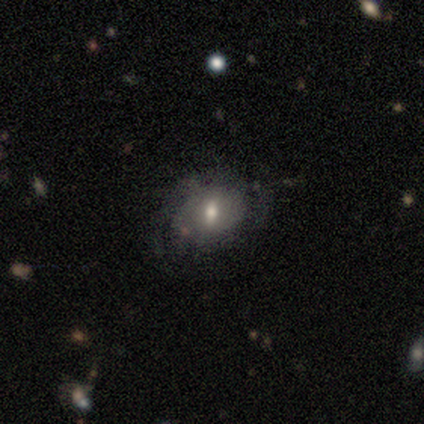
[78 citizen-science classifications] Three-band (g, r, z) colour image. It shows a featured or disk galaxy (50%) with a weak bar (45%), medium (38%) spiral arms (55%) and a moderate central bulge (61%). Merging: none (30%).